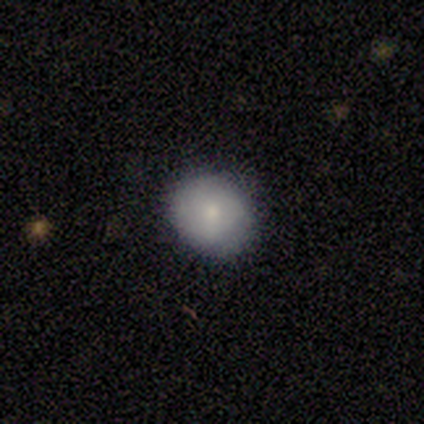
This appears to be a smooth galaxy with no disk features (100%) that is round (100%). Merging: none (100%).